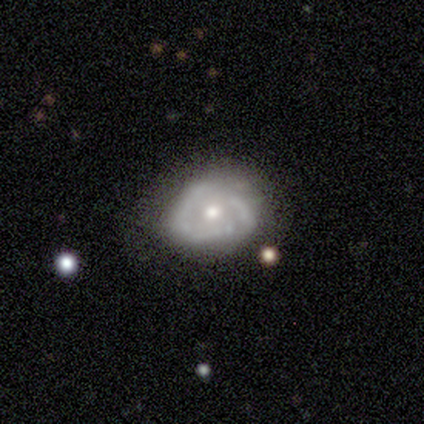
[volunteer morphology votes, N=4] Smooth or featured? 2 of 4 (50%) said featured or disk. Edge-on disk? 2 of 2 (100%) said no. Bar? 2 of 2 (100%) said no. Spiral arms? 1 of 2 (50%, tied with no) said yes. Spiral winding? 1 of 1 (100%) said tight. Spiral arm count? 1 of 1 (100%) said can't tell. Bulge size? 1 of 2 (50%, tied with small) said moderate. Merging? 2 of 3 (67%) said none.